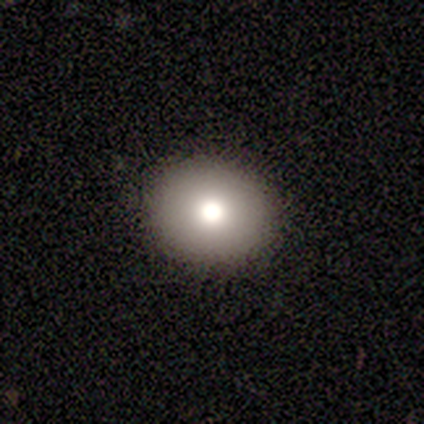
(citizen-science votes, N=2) A smooth galaxy with no disk features (100%) that is round (100%). Merging: none (100%).